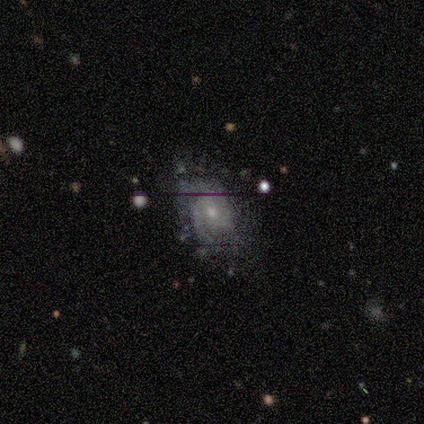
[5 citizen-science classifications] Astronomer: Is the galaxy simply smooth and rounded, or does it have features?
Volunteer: featured or disk — 80%.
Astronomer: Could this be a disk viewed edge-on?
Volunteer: no — 100%.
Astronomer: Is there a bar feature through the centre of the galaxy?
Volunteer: weak — 50%, tied with no at 50%.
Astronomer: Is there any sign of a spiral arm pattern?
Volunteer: yes — 75%.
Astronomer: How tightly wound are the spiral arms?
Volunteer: medium — 67%.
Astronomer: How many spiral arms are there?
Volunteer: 2 — 67%.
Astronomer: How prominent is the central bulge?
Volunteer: small — 100%.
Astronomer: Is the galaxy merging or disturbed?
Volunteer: none — 60% (runner-up: minor disturbance, 40%).